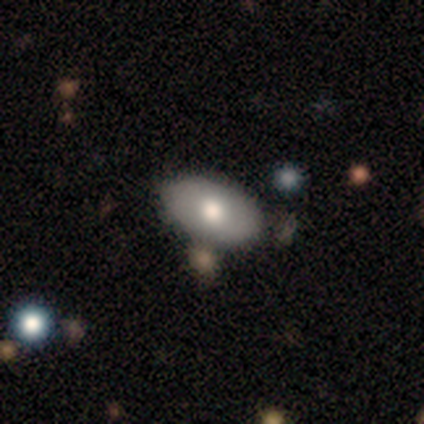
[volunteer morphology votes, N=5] A smooth galaxy with no disk features (80%) that is in between round and cigar-shaped (75%).

Vote fractions:
- Smooth or featured? smooth: 80% / featured or disk: 20% / star or artifact: 0%
- How rounded? in between: 75% / round: 25% / cigar-shaped: 0%
- Merging? none: 100% / minor disturbance: 0% / major disturbance: 0% / merger: 0%